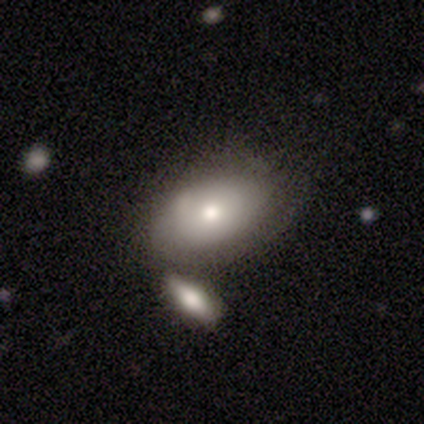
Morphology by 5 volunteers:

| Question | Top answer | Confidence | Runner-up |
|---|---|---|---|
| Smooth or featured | smooth | 40% | tied: featured or disk (40%) |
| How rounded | in between | 100% | — |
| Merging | none | 75% | minor disturbance (25%) |